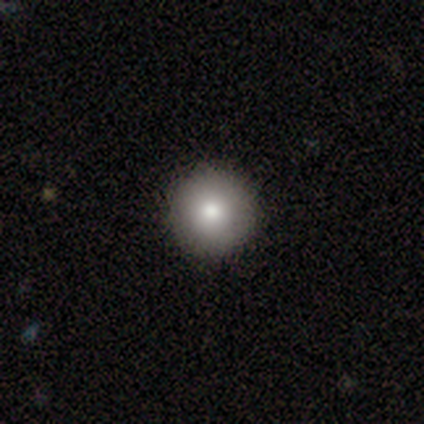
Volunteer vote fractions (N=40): Morphology: type=smooth (80%); roundness=round (100%); merging=none (94%).